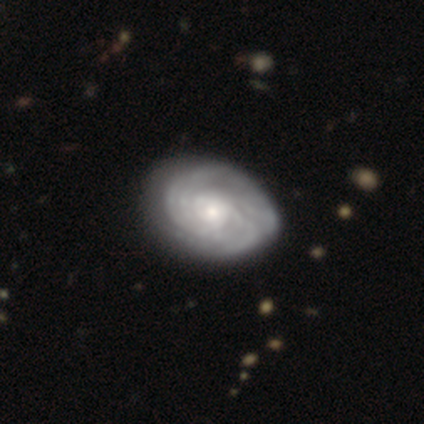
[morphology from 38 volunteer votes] featured or disk 92%, smooth 8%, star or artifact 0%. Down the decision tree: edge-on disk — no (100%); bar — no (77%); spiral arms — yes (89%); spiral arm count — can't tell (39%); spiral winding — tight (77%); bulge size — small (46%); merging — none (55%).